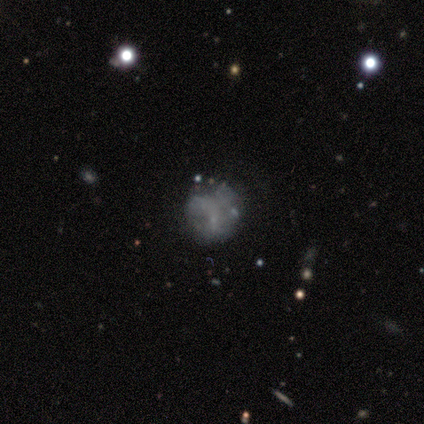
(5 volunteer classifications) smooth_or_featured: featured or disk (p=0.60) [alt: star or artifact p=0.40]
disk_edge_on: no (p=1.00)
bar: no (p=1.00)
has_spiral_arms: no (p=1.00)
bulge_size: none (p=1.00)
merging: none (p=1.00)